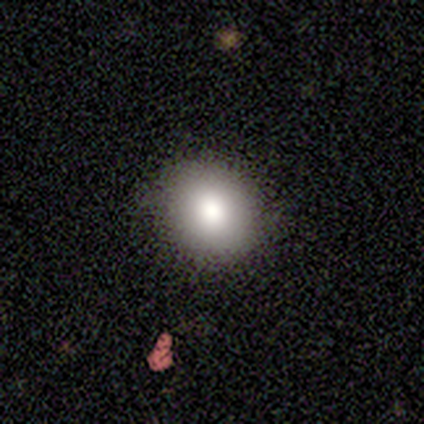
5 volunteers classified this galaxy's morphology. A smooth galaxy with no disk features (100%) that is in between round and cigar-shaped (60%). Merging: minor disturbance (60%).